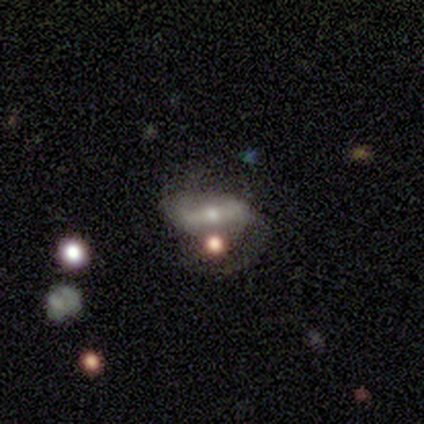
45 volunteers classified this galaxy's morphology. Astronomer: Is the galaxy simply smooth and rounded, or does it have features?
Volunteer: featured or disk — 80%.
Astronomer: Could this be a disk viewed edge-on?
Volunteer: no — 92%.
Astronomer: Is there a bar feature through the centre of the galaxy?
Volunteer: strong — 48% (runner-up: weak, 42%).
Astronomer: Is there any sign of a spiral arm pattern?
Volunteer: yes — 67%.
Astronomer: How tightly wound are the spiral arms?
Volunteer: medium — 59%.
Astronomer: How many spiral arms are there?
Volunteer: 2 — 82%.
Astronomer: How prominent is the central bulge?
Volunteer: moderate — 55% (runner-up: small, 39%).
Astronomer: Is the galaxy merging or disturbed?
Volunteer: none — 33% (runner-up: major disturbance, 30%).